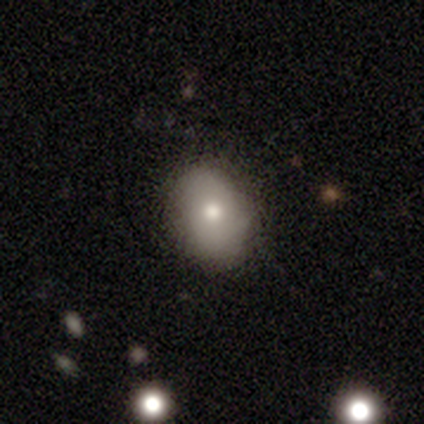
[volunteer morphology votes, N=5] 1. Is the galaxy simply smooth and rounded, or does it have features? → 60% smooth, 20% featured or disk, 20% star or artifact.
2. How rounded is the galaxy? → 100% in between, 0% round, 0% cigar-shaped.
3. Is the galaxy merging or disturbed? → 50% none (tied), 50% minor disturbance (tied), 0% major disturbance, 0% merger.